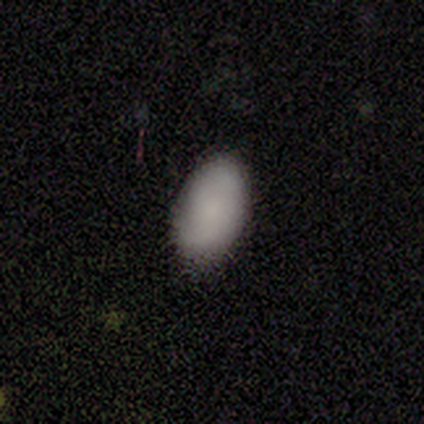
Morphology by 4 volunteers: type=smooth (50%); roundness=in between (100%); merging=none (67%).